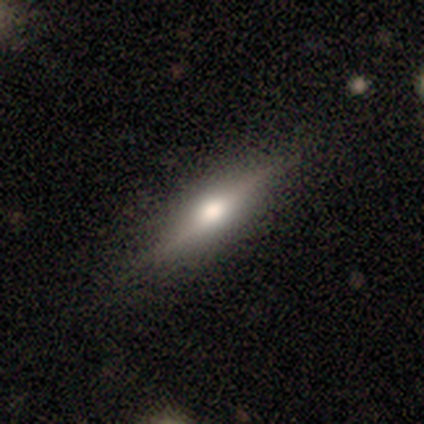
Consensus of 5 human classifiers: Morphology: type=featured or disk (100%); edge-on=yes (100%); edge-on bulge=rounded (100%); merging=none (100%).